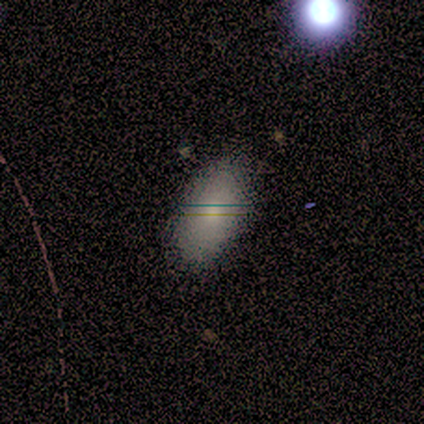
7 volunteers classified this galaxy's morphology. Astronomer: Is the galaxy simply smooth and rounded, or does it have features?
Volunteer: smooth — 86%.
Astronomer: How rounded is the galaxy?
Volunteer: in between — 100%.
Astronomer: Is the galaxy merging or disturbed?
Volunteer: none — 100%.